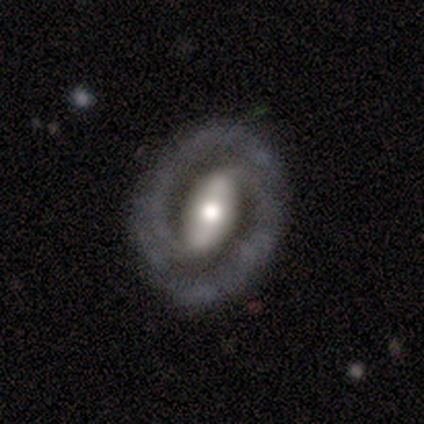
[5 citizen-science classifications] Smooth or featured? featured or disk (80%)
Edge-on disk? no (100%)
Bar? strong (75%)
Spiral arms? yes (100%)
Spiral winding? tight (50%, tied with medium)
Spiral arm count? 2 (100%)
Bulge size? moderate (50%)
Merging? none (100%)